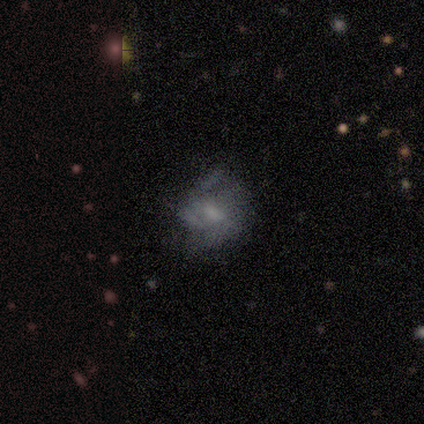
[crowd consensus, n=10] A smooth galaxy with no disk features (50%, tied with featured or disk) that is in between round and cigar-shaped (80%). Merging: none (60%).